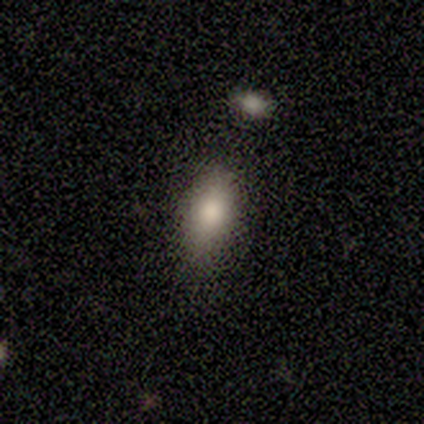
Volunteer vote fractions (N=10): smooth-or-featured: smooth: 80% | featured or disk: 10% | star or artifact: 10%
  how-rounded: in between: 100% | round: 0% | cigar-shaped: 0%
  merging: none: 89% | major disturbance: 11% | minor disturbance: 0% | merger: 0%